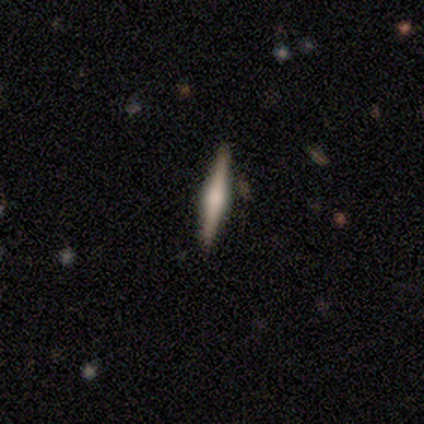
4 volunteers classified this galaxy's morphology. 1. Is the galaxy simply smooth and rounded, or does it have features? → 50% smooth (tied), 50% featured or disk (tied), 0% star or artifact.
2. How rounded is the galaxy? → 100% cigar-shaped, 0% round, 0% in between.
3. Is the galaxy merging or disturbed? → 100% none, 0% minor disturbance, 0% major disturbance, 0% merger.